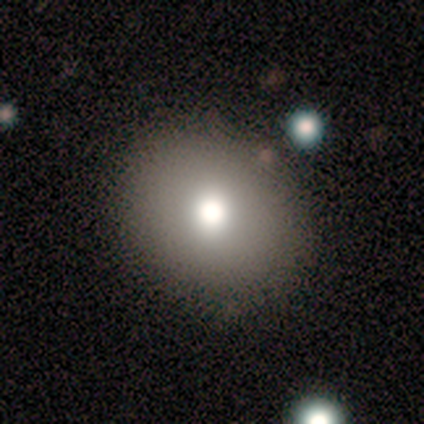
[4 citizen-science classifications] Smooth or featured?
  - smooth: 75% *
  - star or artifact: 25%
  - featured or disk: 0%
How rounded?
  - in between: 100% *
  - round: 0%
  - cigar-shaped: 0%
Merging?
  - none: 100% *
  - minor disturbance: 0%
  - major disturbance: 0%
  - merger: 0%